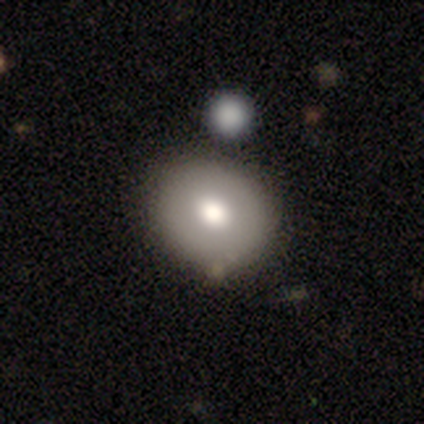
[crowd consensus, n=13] smooth 62%, star or artifact 23%, featured or disk 15%. Down the decision tree: how rounded — round (62%); merging — none (50%).